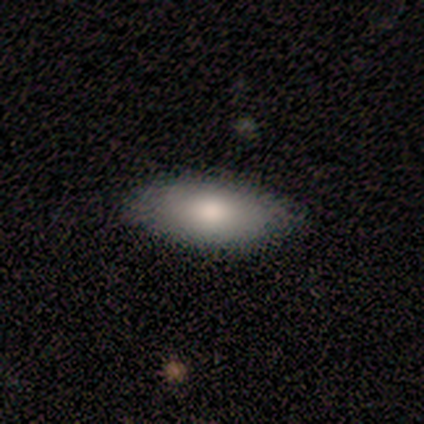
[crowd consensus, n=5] Volunteers were most divided on "merging": minor disturbance: 60%, none: 40%, major disturbance: 0%, merger: 0%. More confident: how rounded — in between (100%); smooth or featured — smooth (80%).